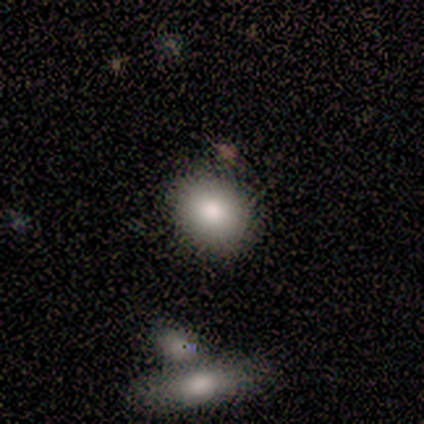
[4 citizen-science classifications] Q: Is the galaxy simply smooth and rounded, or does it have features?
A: smooth — 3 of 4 (75%).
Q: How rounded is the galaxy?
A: round — 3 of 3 (100%).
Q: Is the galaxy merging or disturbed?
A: none — 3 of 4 (75%).